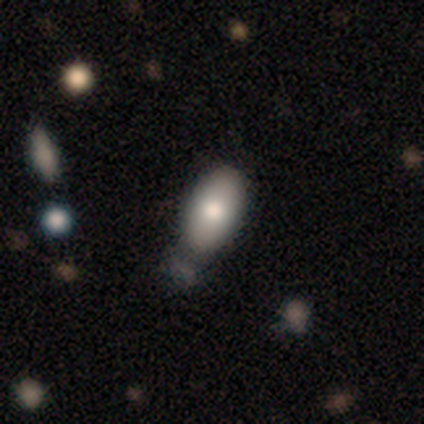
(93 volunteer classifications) Overall: smooth (81%). How rounded: in between (93%). Merging: minor disturbance (45%; none 40%).